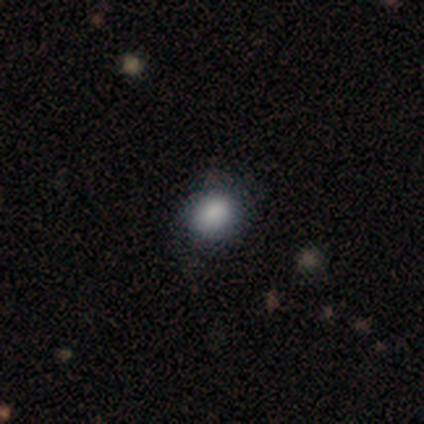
Overall: smooth (78%). How rounded: round (56%; in between 44%). Merging: none (81%).